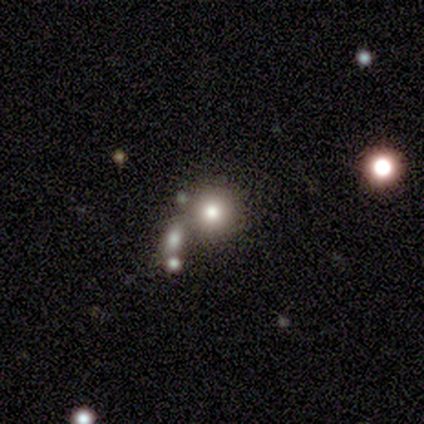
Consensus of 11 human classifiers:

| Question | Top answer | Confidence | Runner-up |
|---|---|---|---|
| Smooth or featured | smooth | 82% | star or artifact (18%) |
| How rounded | round | 78% | in between (22%) |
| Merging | none | 78% | minor disturbance (22%) |